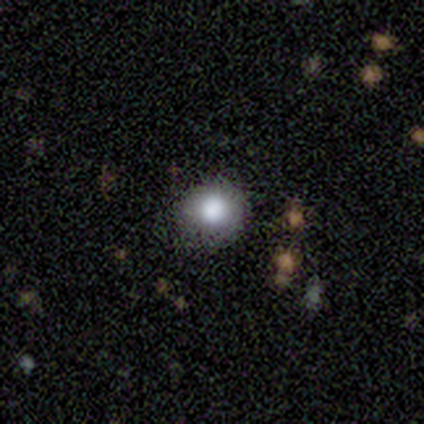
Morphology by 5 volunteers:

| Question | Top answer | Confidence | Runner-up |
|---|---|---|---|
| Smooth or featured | smooth | 100% | — |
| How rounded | round | 80% | in between (20%) |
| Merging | none | 60% | minor disturbance (40%) |